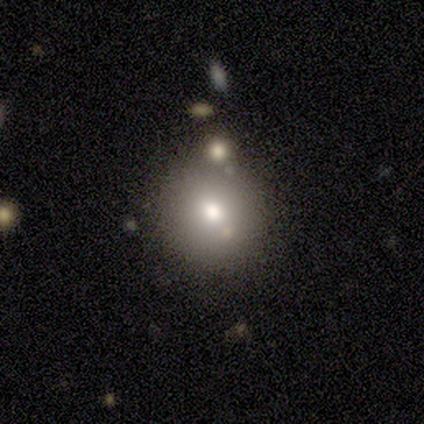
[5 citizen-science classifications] Volunteers were most divided on "merging" (2-way tie): none: 50%, merger: 50%, minor disturbance: 0%, major disturbance: 0%. More confident: how rounded — round (100%); smooth or featured — smooth (60%).